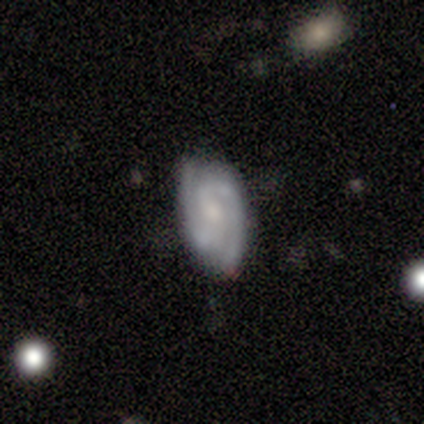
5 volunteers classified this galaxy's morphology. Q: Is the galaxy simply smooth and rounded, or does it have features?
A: featured or disk — 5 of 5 (100%).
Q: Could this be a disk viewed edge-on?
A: no — 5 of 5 (100%).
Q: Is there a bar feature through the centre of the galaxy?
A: weak — 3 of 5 (60%).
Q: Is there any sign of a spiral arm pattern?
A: yes — 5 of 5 (100%).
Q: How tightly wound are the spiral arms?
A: tight — 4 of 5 (80%).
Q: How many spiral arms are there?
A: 2 — 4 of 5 (80%).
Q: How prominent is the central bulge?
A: small — 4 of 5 (80%).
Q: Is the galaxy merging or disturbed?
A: none — 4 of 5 (80%).